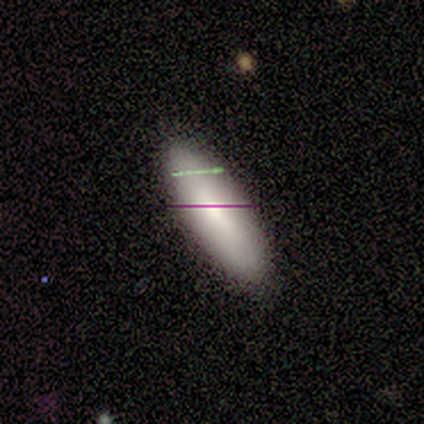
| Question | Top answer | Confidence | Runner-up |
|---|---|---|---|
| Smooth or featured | smooth | 100% | — |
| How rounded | cigar-shaped | 100% | — |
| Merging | none | 100% | — |